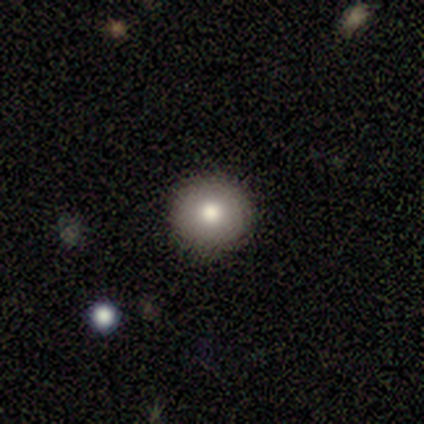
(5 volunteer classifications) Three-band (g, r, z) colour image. It shows a smooth galaxy with no disk features (80%) that is round (100%). Merging: none (75%).